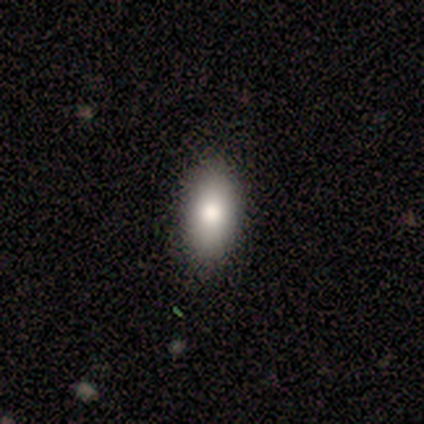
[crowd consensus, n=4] smooth 75%, star or artifact 25%, featured or disk 0%. Down the decision tree: how rounded — in between (100%); merging — none (100%).